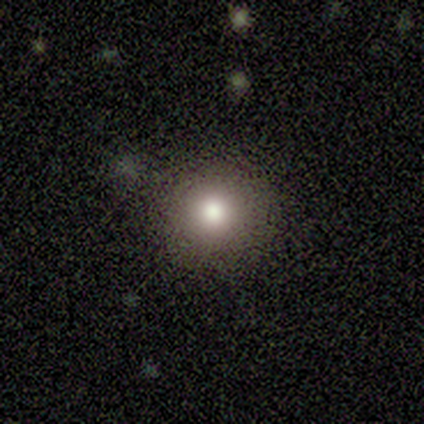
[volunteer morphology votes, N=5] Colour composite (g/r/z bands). It shows a smooth galaxy with no disk features (100%) that is round (60%). Merging: none (80%).